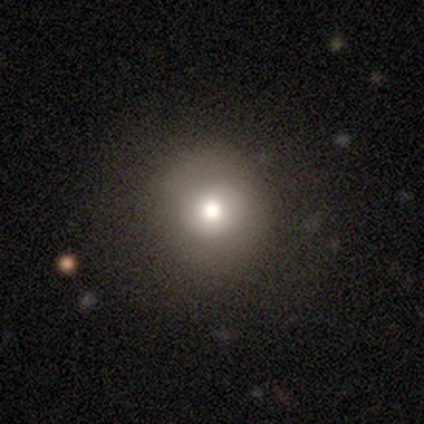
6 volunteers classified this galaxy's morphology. Volunteers were most divided on "smooth or featured": smooth: 50%, star or artifact: 33%, featured or disk: 17%. More confident: merging — none (75%); how rounded — round (67%).